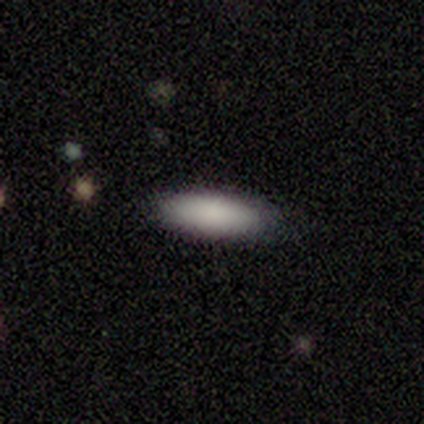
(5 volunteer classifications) Morphology: type=featured or disk (60%); edge-on=yes (67%); edge-on bulge=none (50%, tied with rounded); merging=none (100%).